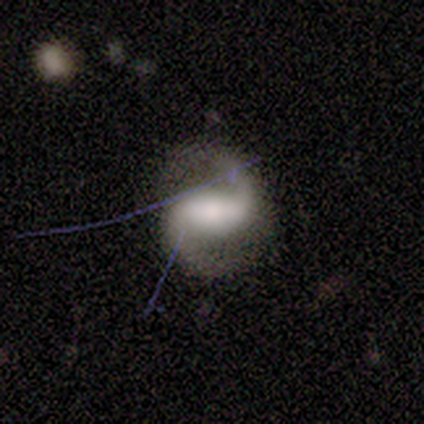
A featured or disk galaxy (83%) with a strong bar (50%, tied with no), 2 (100%) loose (56%) spiral arms (90%) and a large central bulge (50%).

Vote fractions:
- Smooth or featured? featured or disk: 83% / smooth: 17% / star or artifact: 0%
- Edge-on disk? no: 100% / yes: 0%
- Bar? strong: 50% (tied) / no: 50% (tied) / weak: 0%
- Spiral arms? yes: 90% / no: 10%
- Spiral winding? loose: 56% / medium: 44% / tight: 0%
- Spiral arm count? 2: 100% / 1: 0% / 3: 0% / 4: 0% / more than 4: 0% / can't tell: 0%
- Bulge size? large: 50% / small: 30% / moderate: 20% / dominant: 0% / none: 0%
- Merging? none: 67% / major disturbance: 25% / minor disturbance: 8% / merger: 0%